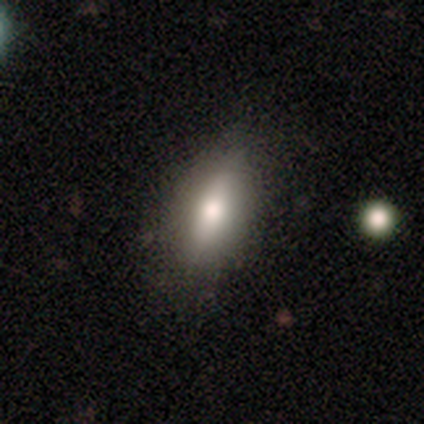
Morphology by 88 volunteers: smooth-or-featured: smooth: 68% | featured or disk: 22% | star or artifact: 10%
  how-rounded: in between: 58% | cigar-shaped: 42% | round: 0%
  merging: none: 80% | minor disturbance: 15% | major disturbance: 4% | merger: 1%